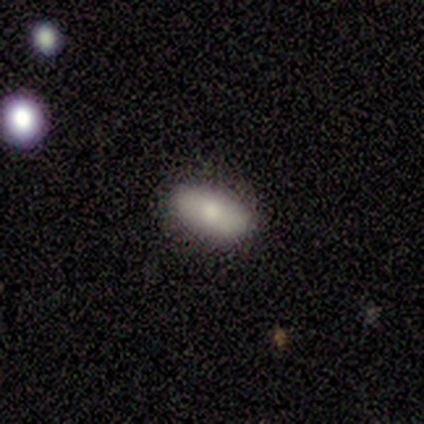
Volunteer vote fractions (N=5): This is clearly a smooth galaxy (80%). How rounded: possibly in between (50%). Merging: clearly none (100%).